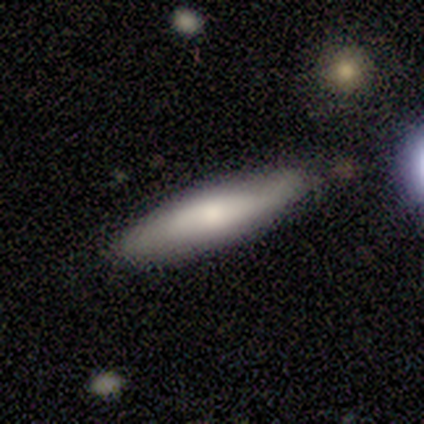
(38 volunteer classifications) This is possibly a smooth galaxy (53%). How rounded: likely cigar-shaped (70%). Merging: clearly none (82%).